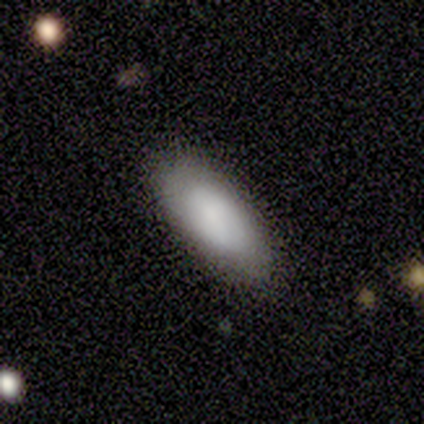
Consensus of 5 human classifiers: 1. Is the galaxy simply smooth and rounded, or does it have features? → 80% smooth, 20% featured or disk, 0% star or artifact.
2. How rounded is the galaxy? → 75% in between, 25% cigar-shaped, 0% round.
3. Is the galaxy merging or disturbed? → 60% none, 40% minor disturbance, 0% major disturbance, 0% merger.